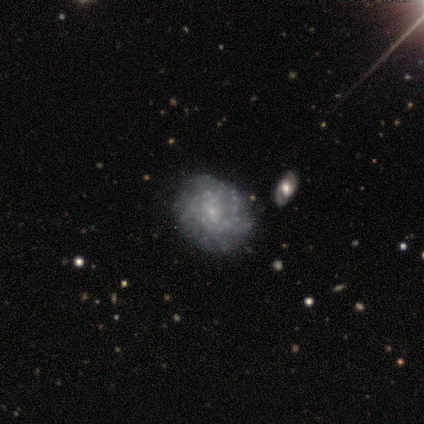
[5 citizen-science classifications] A featured or disk galaxy (100%) with no bar (100%), tight (100%) spiral arms (60%) and a small central bulge (100%). Merging: none (100%).